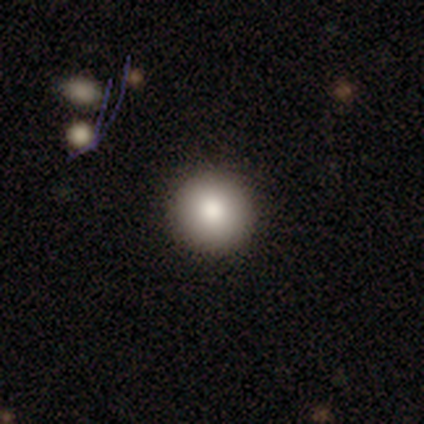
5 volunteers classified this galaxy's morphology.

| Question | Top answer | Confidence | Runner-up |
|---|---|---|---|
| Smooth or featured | smooth | 100% | — |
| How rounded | round | 100% | — |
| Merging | none | 100% | — |